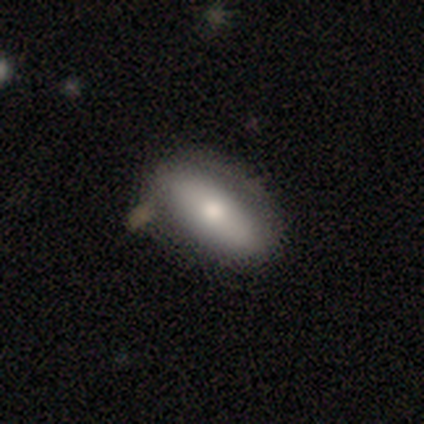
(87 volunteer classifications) Q: Smooth or featured?
A: smooth (67%); runner-up: featured or disk (32%)
Q: How rounded?
A: in between (78%); runner-up: cigar-shaped (21%)
Q: Merging?
A: none (65%); runner-up: minor disturbance (24%)